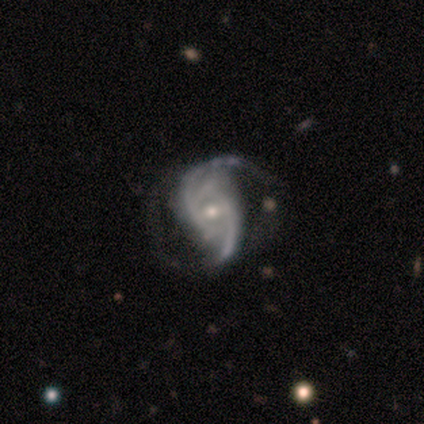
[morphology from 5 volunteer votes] This is clearly a featured or disk galaxy (100%). It is clearly not viewed edge-on (100%). Bar: likely no (60%). Spiral arm pattern: clearly yes (80%). Spiral arm count: clearly 2 (100%). Spiral winding: likely loose (75%). Central bulge: likely small (60%). Merging: marginally none (40%, tied with minor disturbance).